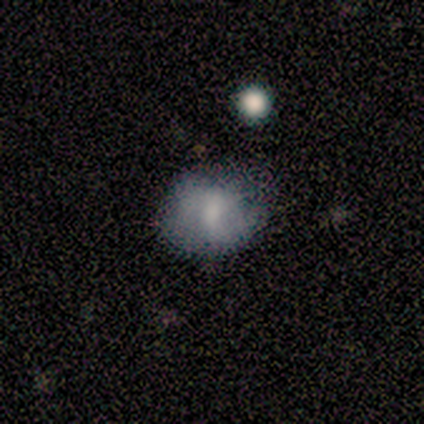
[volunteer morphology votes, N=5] smooth-or-featured: smooth: 60% | featured or disk: 40% | star or artifact: 0%
  how-rounded: in between: 67% | round: 33% | cigar-shaped: 0%
  merging: none: 60% | minor disturbance: 40% | major disturbance: 0% | merger: 0%